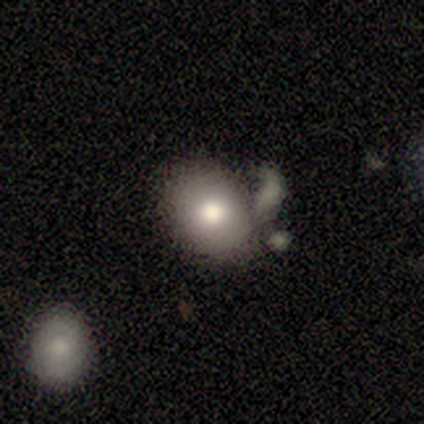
A smooth galaxy with no disk features (80%) that is round (50%, tied with in between).

Vote fractions:
- Smooth or featured? smooth: 80% / star or artifact: 20% / featured or disk: 0%
- How rounded? round: 50% (tied) / in between: 50% (tied) / cigar-shaped: 0%
- Merging? none: 50% (tied) / merger: 50% (tied) / minor disturbance: 0% / major disturbance: 0%